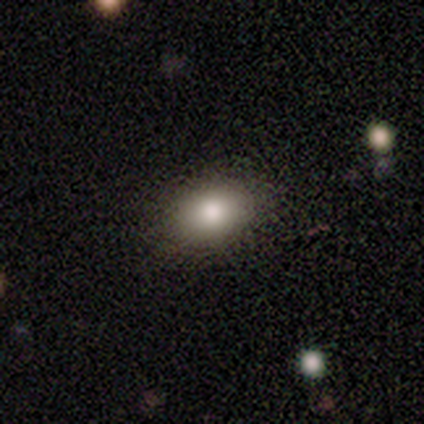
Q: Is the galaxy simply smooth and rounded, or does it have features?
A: smooth — 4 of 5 (80%).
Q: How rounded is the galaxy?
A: in between — 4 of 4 (100%).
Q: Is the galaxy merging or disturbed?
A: none — 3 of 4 (75%).